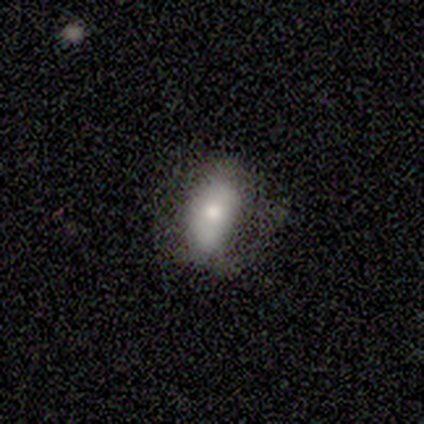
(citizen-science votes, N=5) This appears to be a smooth galaxy with no disk features (80%) that is in between round and cigar-shaped (100%). Merging: none (50%).